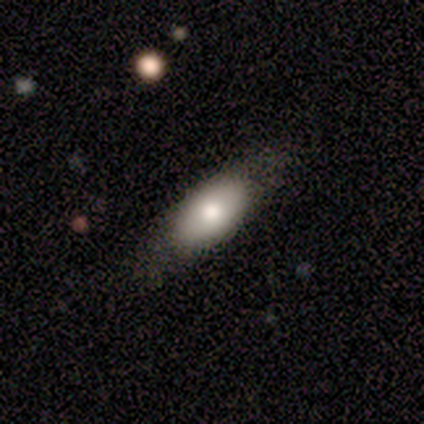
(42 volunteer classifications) Smooth or featured? smooth (57%)
How rounded? in between (79%)
Merging? none (69%)